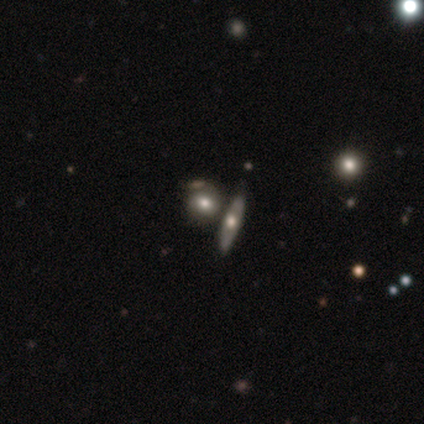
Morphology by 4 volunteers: A featured or disk galaxy (50%) with a strong bar (50%, tied with no), tight (100%) spiral arms (50%, tied with no) and a moderate central bulge (100%).

Vote fractions:
- Smooth or featured? featured or disk: 50% / smooth: 25% / star or artifact: 25%
- Edge-on disk? no: 100% / yes: 0%
- Bar? strong: 50% (tied) / no: 50% (tied) / weak: 0%
- Spiral arms? yes: 50% (tied) / no: 50% (tied)
- Spiral winding? tight: 100% / medium: 0% / loose: 0%
- Spiral arm count? can't tell: 100% / 1: 0% / 2: 0% / 3: 0% / 4: 0% / more than 4: 0%
- Bulge size? moderate: 100% / dominant: 0% / large: 0% / small: 0% / none: 0%
- Merging? none: 100% / minor disturbance: 0% / major disturbance: 0% / merger: 0%